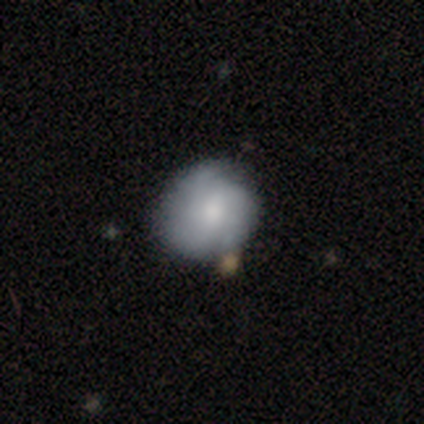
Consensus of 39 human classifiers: Smooth or featured? 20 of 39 (51%) said smooth. How rounded? 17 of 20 (85%) said round. Merging? 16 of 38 (42%) said none.